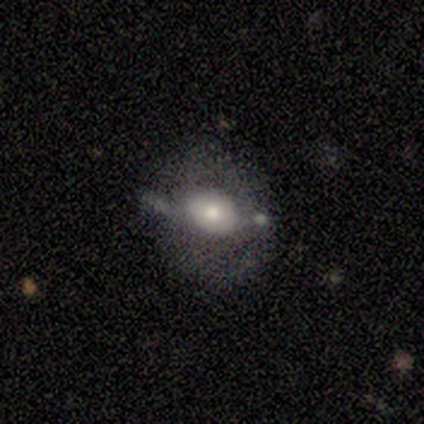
smooth_or_featured: featured or disk (p=0.60) [alt: smooth p=0.40]
disk_edge_on: no (p=1.00)
bar: no (p=1.00)
has_spiral_arms: no (p=1.00)
bulge_size: moderate (p=0.67) [alt: large p=0.33]
merging: minor disturbance (p=0.60) [alt: none p=0.20]